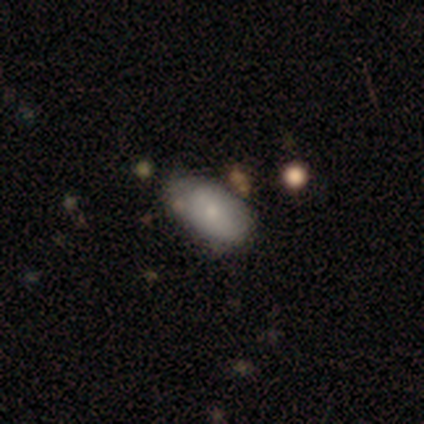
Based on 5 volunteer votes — This is clearly a smooth galaxy (80%). How rounded: clearly in between (100%). Merging: likely none (60%).